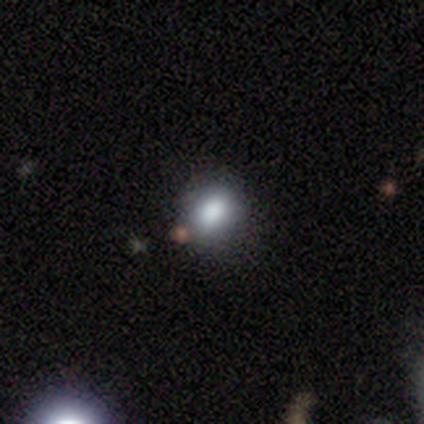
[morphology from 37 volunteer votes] Overall: smooth (81%). How rounded: in between (63%; round 37%). Merging: none (88%).